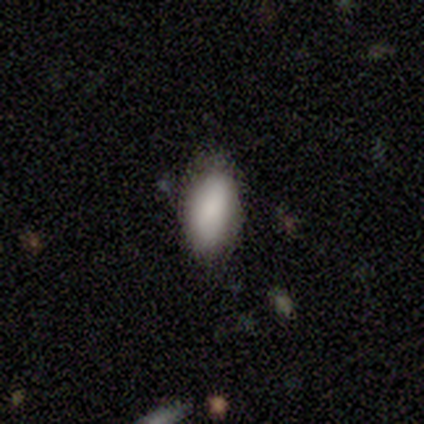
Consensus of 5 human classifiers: Smooth or featured? smooth (100%)
How rounded? in between (80%)
Merging? none (80%)